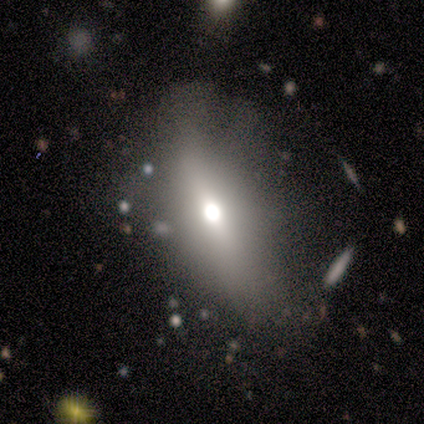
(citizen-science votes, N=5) A smooth galaxy with no disk features (60%) that is in between round and cigar-shaped (100%).

Vote fractions:
- Smooth or featured? smooth: 60% / featured or disk: 20% / star or artifact: 20%
- How rounded? in between: 100% / round: 0% / cigar-shaped: 0%
- Merging? none: 50% / minor disturbance: 25% / major disturbance: 25% / merger: 0%